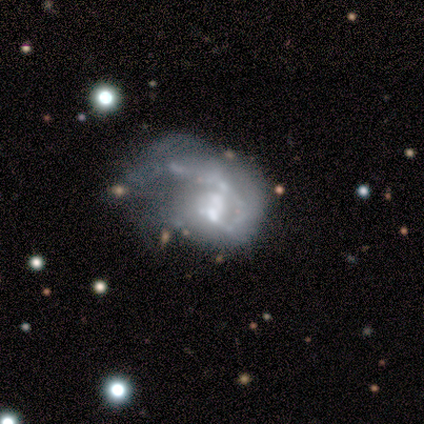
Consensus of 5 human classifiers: Smooth or featured? 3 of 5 (60%) said featured or disk. Edge-on disk? 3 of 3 (100%) said no. Bar? 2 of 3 (67%) said weak. Spiral arms? 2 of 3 (67%) said yes. Spiral winding? 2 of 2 (100%) said tight. Spiral arm count? 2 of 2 (100%) said can't tell. Bulge size? 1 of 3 (33%, tied with small and none) said moderate. Merging? 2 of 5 (40%, tied with merger) said major disturbance.